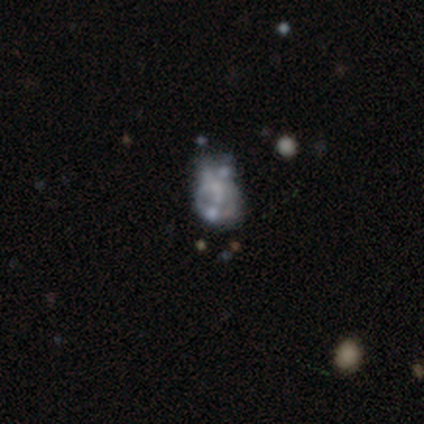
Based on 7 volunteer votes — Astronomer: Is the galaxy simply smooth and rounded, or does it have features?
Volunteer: featured or disk — 86%.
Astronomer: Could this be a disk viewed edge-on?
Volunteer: no — 100%.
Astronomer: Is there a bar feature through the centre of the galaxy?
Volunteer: no — 100%.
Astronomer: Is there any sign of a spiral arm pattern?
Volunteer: no — 83%.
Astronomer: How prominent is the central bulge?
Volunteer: none — 67%.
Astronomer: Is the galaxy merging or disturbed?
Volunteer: minor disturbance — 57%.